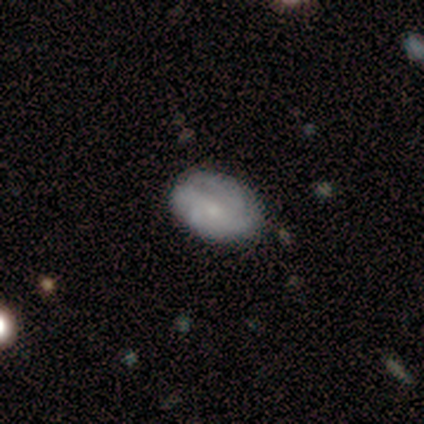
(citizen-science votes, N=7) smooth_or_featured: featured or disk (p=0.71) [alt: smooth p=0.29]
disk_edge_on: no (p=1.00)
bar: no (p=1.00)
has_spiral_arms: yes (p=0.80) [alt: no p=0.20]
spiral_winding: tight (p=1.00)
spiral_arm_count: can't tell (p=0.50) [alt: 4 p=0.25]
bulge_size: small (p=0.80) [alt: moderate p=0.20]
merging: none (p=1.00)